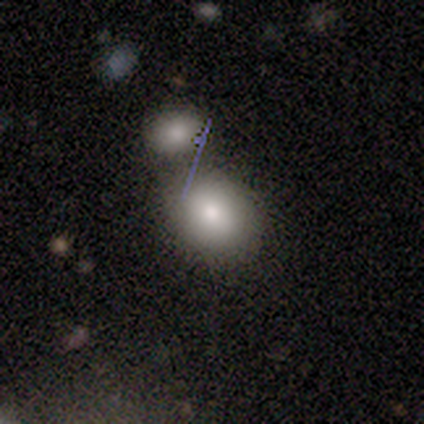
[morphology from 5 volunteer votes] Overall: smooth (60%; featured or disk 20%). How rounded: in between (67%; round 33%). Merging: none (75%).